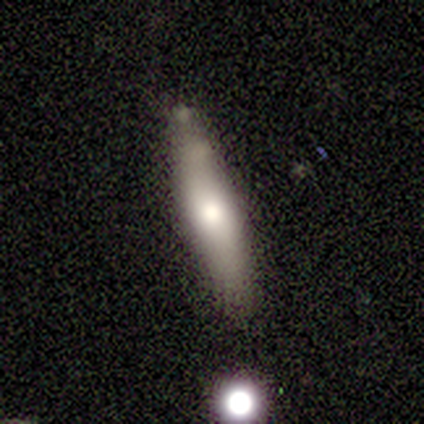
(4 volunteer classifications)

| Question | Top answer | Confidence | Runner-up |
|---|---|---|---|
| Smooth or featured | smooth | 100% | — |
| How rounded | in between | 75% | cigar-shaped (25%) |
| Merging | none | 100% | — |